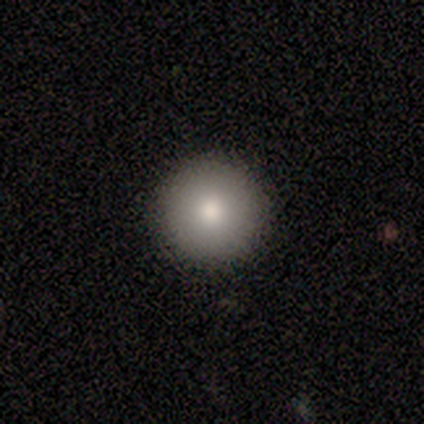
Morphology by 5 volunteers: Smooth or featured?
  - smooth: 100% *
  - featured or disk: 0%
  - star or artifact: 0%
How rounded?
  - round: 100% *
  - in between: 0%
  - cigar-shaped: 0%
Merging?
  - none: 100% *
  - minor disturbance: 0%
  - major disturbance: 0%
  - merger: 0%